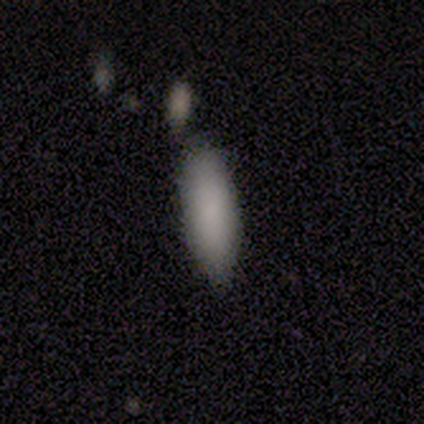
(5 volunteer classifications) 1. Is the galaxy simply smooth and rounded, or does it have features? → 80% smooth, 20% star or artifact, 0% featured or disk.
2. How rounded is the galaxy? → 75% in between, 25% cigar-shaped, 0% round.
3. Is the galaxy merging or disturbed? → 100% none, 0% minor disturbance, 0% major disturbance, 0% merger.